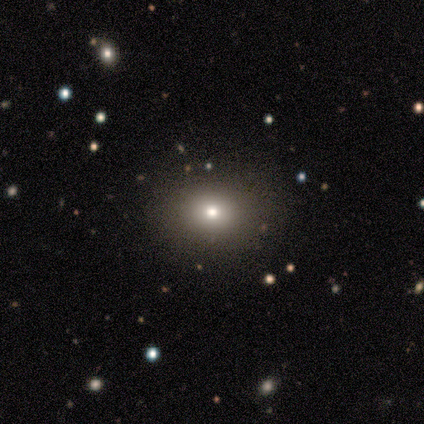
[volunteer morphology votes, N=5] smooth-or-featured: smooth: 80% | star or artifact: 20% | featured or disk: 0%
  how-rounded: in between: 75% | round: 25% | cigar-shaped: 0%
  merging: none: 100% | minor disturbance: 0% | major disturbance: 0% | merger: 0%